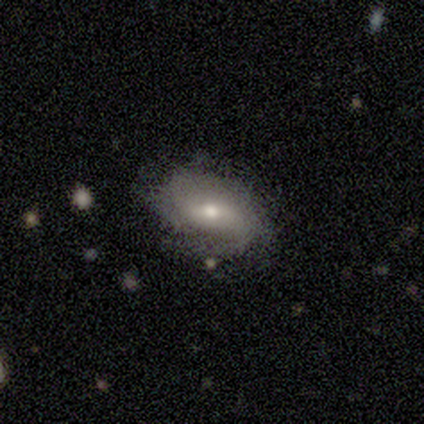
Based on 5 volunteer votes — Morphology: type=featured or disk (80%); edge-on=no (100%); bar=weak (75%); spiral arms=yes (100%); winding=tight (50%); arm count=can't tell (50%); bulge=moderate (100%); merging=none (100%).